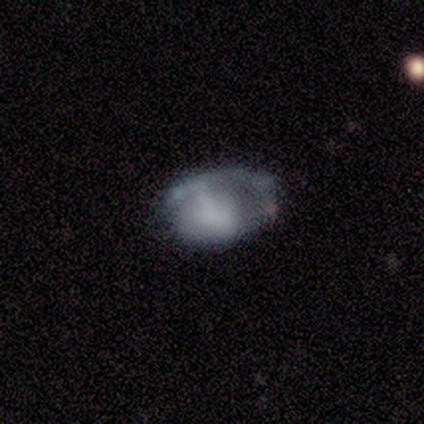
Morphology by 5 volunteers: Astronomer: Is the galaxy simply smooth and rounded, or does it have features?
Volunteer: featured or disk — 60%.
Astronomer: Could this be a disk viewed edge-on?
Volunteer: no — 100%.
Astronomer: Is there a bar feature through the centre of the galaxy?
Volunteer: no — 67%.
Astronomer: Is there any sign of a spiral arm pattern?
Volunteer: yes — 67%.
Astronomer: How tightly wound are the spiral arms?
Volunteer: tight — 50%, tied with loose at 50%.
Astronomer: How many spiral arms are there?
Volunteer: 1 — 50%, tied with can't tell at 50%.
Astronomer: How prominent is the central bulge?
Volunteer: moderate — 67%.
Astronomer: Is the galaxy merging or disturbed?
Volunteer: major disturbance — 50%.